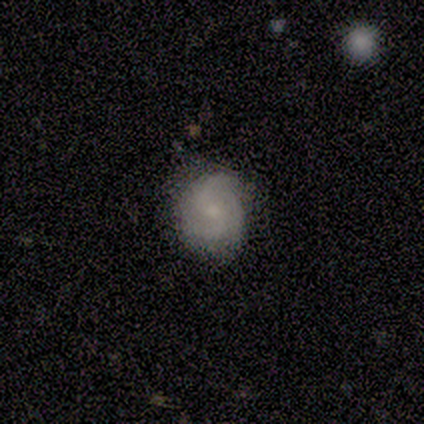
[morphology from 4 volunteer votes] This is possibly a smooth galaxy (50%, tied with featured or disk). How rounded: possibly round (50%, tied with in between). Merging: clearly none (100%).